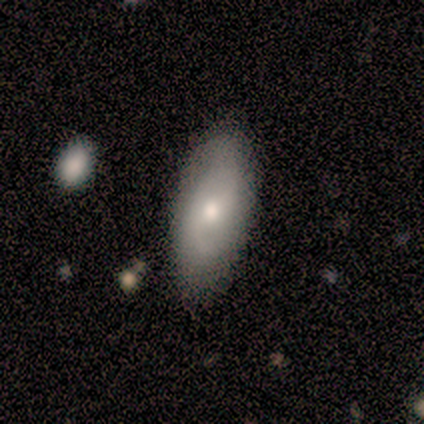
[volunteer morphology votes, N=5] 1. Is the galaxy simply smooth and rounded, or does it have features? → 80% smooth, 20% featured or disk, 0% star or artifact.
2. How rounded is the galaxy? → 100% in between, 0% round, 0% cigar-shaped.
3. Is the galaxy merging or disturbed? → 60% none, 20% minor disturbance, 20% merger, 0% major disturbance.